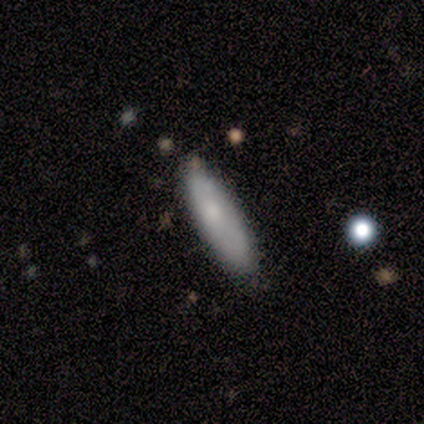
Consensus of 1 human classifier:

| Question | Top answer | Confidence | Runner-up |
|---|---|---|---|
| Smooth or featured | smooth | 100% | — |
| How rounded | in between | 100% | — |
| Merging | none | 100% | — |